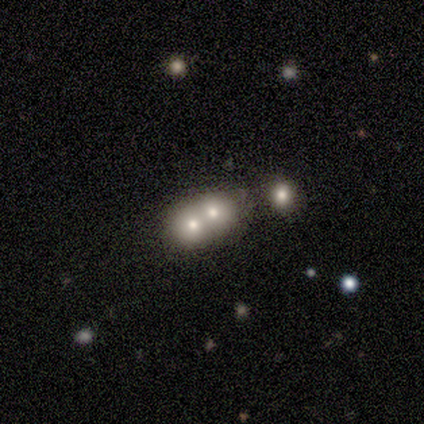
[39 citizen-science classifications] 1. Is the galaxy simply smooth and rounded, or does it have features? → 56% smooth, 26% featured or disk, 18% star or artifact.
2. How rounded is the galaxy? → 55% round, 41% in between, 5% cigar-shaped.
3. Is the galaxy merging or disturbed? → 72% merger, 22% none, 3% minor disturbance, 3% major disturbance.